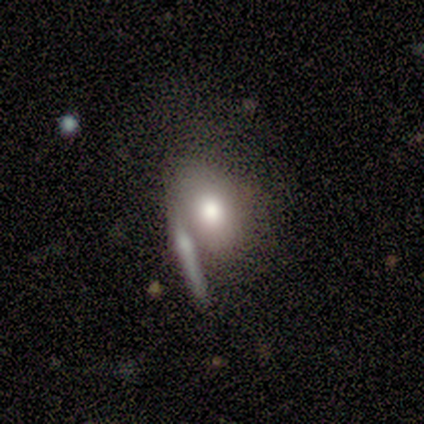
A smooth galaxy with no disk features (60%) that is in between round and cigar-shaped (100%). Merging: none (33%, tied with minor disturbance and major disturbance).